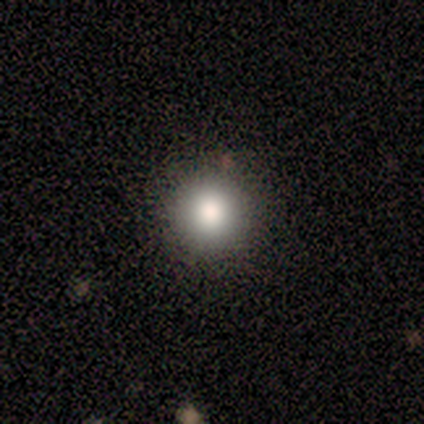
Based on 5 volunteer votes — Smooth or featured? 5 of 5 (100%) said smooth. How rounded? 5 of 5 (100%) said round. Merging? 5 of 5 (100%) said none.